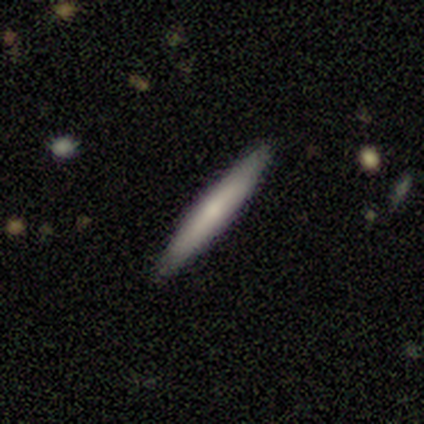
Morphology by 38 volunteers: A smooth galaxy with no disk features (58%) that is cigar-shaped (86%).

Vote fractions:
- Smooth or featured? smooth: 58% / featured or disk: 42% / star or artifact: 0%
- How rounded? cigar-shaped: 86% / in between: 14% / round: 0%
- Merging? none: 92% / minor disturbance: 8% / major disturbance: 0% / merger: 0%